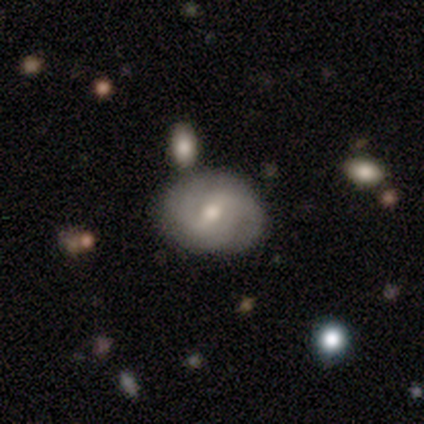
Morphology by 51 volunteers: Overall: smooth (49%, tied with featured or disk). How rounded: in between (60%; round 40%). Merging: none (62%).